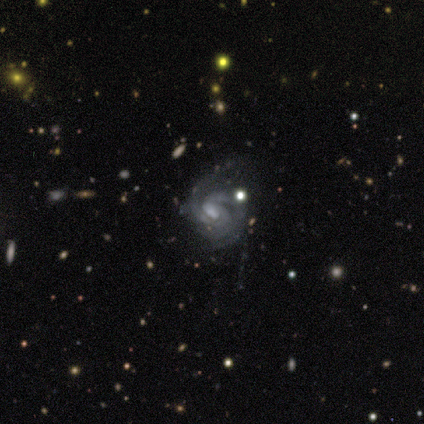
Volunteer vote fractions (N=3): Overall: featured or disk (100%). Edge-on disk: no (100%). Bar: weak (67%; no 33%). Spiral arms: yes (100%). Spiral arm count: 2 (33%, tied with 3 and can't tell). Spiral winding: tight (67%; medium 33%). Bulge size: moderate (33%, tied with small and none). Merging: none (33%, tied with minor disturbance and major disturbance).